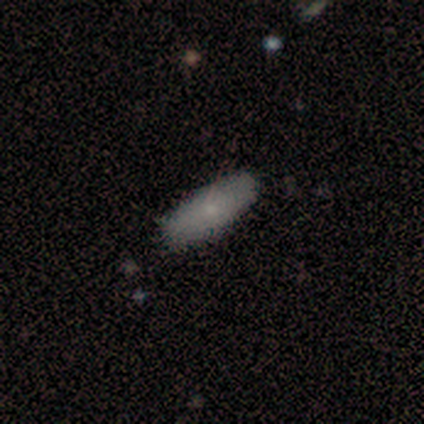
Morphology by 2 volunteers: smooth_or_featured: smooth (p=1.00)
how_rounded: in between (p=1.00)
merging: none (p=1.00)